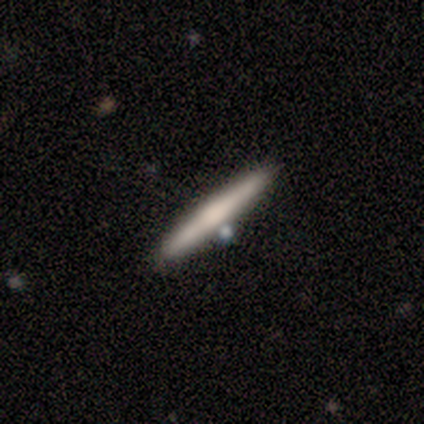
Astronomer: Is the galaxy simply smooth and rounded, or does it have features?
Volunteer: featured or disk — 75%.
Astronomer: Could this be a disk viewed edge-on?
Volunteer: yes — 67%.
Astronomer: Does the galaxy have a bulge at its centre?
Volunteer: rounded — 100%.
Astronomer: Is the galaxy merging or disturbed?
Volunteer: none — 75%.